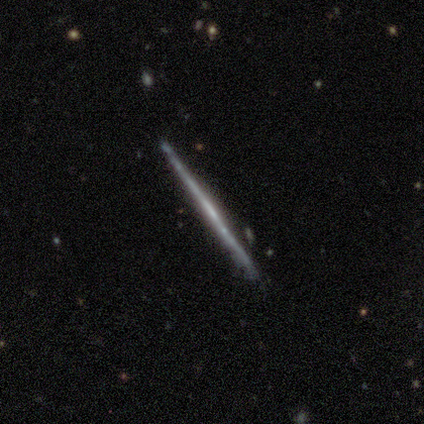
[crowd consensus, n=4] Overall: featured or disk (75%). Edge-on disk: yes (100%). Edge-on bulge: boxy (33%, tied with none and rounded). Merging: none (75%).